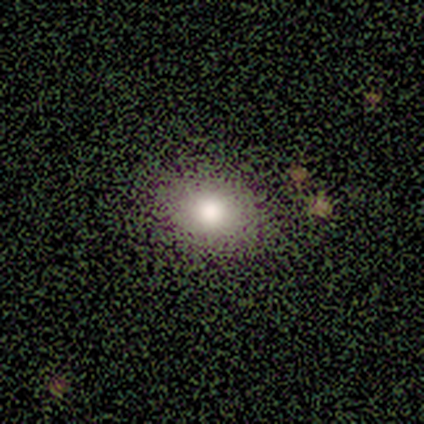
This appears to be a smooth galaxy with no disk features (68%) that is in between round and cigar-shaped (62%). Merging: none (81%).